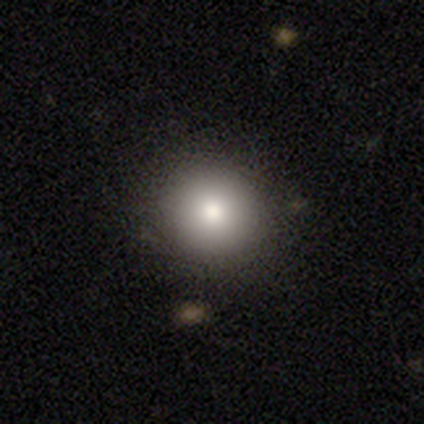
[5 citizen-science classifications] Q: Smooth or featured?
A: smooth (100%)
Q: How rounded?
A: round (100%)
Q: Merging?
A: none (80%); runner-up: minor disturbance (20%)